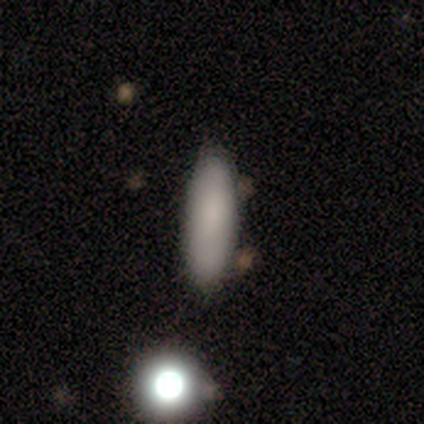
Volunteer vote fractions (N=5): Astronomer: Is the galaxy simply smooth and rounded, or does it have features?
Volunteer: smooth — 80%.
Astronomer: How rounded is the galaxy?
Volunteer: in between — 50%, tied with cigar-shaped at 50%.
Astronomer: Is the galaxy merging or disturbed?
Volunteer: none — 80%.